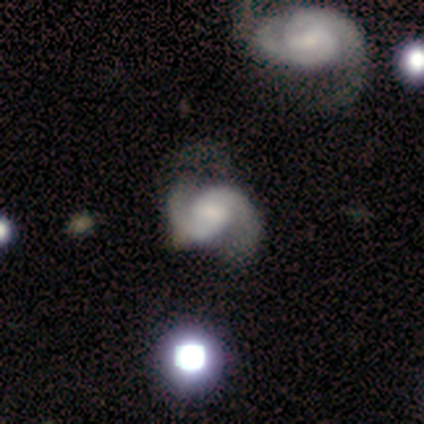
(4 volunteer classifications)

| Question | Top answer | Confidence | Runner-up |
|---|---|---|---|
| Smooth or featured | featured or disk | 100% | — |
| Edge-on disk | no | 100% | — |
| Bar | weak | 50% | tied: no (50%) |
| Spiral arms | yes | 100% | — |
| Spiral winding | medium | 100% | — |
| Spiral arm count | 2 | 100% | — |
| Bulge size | small | 50% | large (25%) |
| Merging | none | 75% | minor disturbance (25%) |